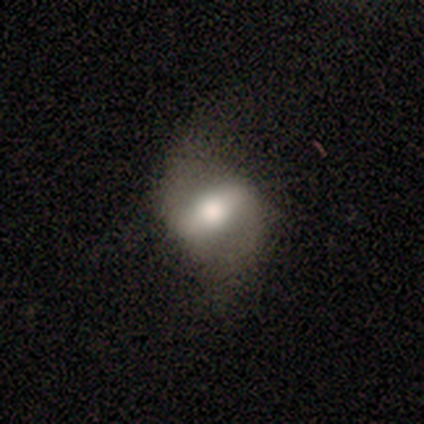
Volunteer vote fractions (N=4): This is possibly a smooth galaxy (50%, tied with featured or disk). How rounded: clearly in between (100%). Merging: possibly none (50%, tied with major disturbance).